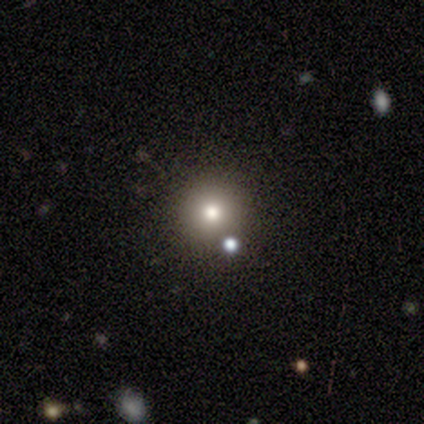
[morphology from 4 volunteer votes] smooth 50%, featured or disk 25%, star or artifact 25%. Down the decision tree: how rounded — round (100%); merging — none (100%).